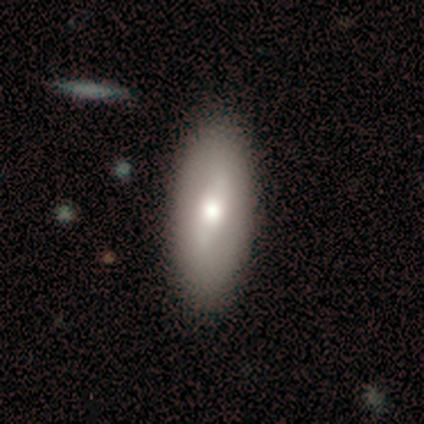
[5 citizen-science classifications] smooth-or-featured: smooth: 80% | featured or disk: 20% | star or artifact: 0%
  how-rounded: in between: 75% | cigar-shaped: 25% | round: 0%
  merging: none: 100% | minor disturbance: 0% | major disturbance: 0% | merger: 0%